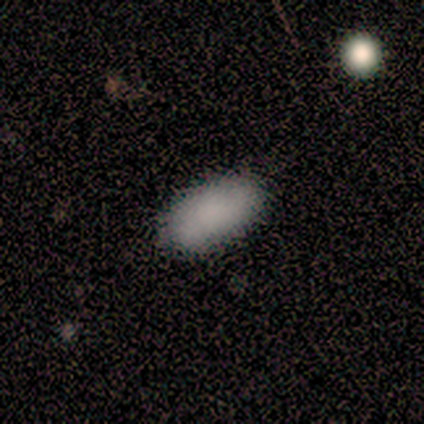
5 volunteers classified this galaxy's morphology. smooth_or_featured: smooth (p=0.60) [alt: featured or disk p=0.20]
how_rounded: in between (p=1.00)
merging: none (p=1.00)